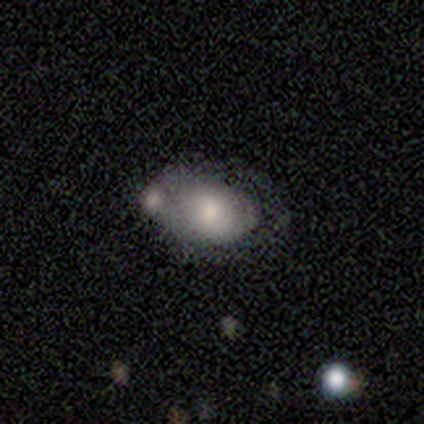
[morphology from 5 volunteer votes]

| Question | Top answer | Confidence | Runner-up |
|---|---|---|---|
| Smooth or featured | smooth | 60% | featured or disk (20%) |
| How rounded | in between | 100% | — |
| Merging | none | 75% | merger (25%) |